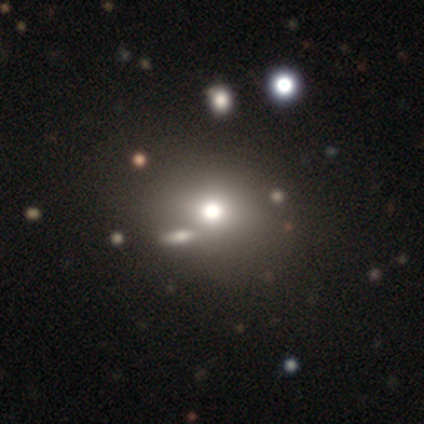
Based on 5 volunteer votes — Volunteers were most divided on "merging": none: 60%, minor disturbance: 20%, merger: 20%, major disturbance: 0%. More confident: how rounded — round (100%); smooth or featured — smooth (80%).